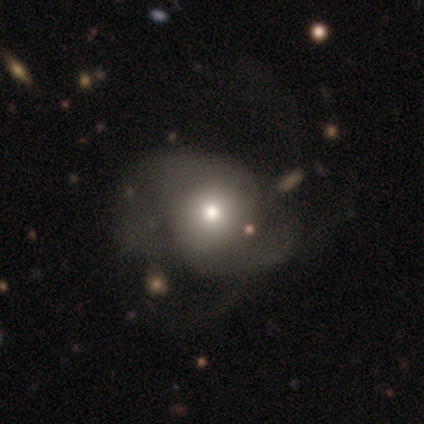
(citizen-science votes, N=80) Smooth or featured?
  - smooth: 49% *
  - featured or disk: 46%
  - star or artifact: 5%
How rounded?
  - round: 77% *
  - in between: 23%
  - cigar-shaped: 0%
Merging?
  - none: 21% *
  - major disturbance: 20%
  - minor disturbance: 8%
  - merger: 3%